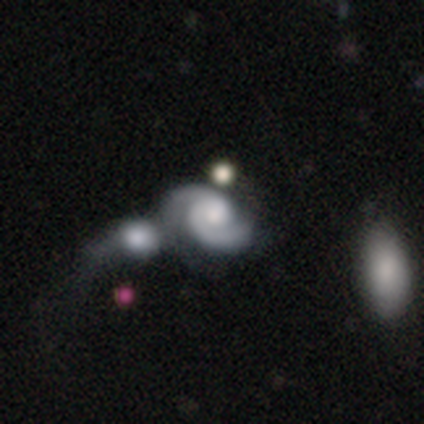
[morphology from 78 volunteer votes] featured or disk 88%, smooth 8%, star or artifact 4%. Down the decision tree: edge-on disk — no (97%); bar — no (90%); spiral arms — yes (100%); spiral arm count — 2 (87%); spiral winding — medium (49%); bulge size — moderate (39%); merging — merger (36%).